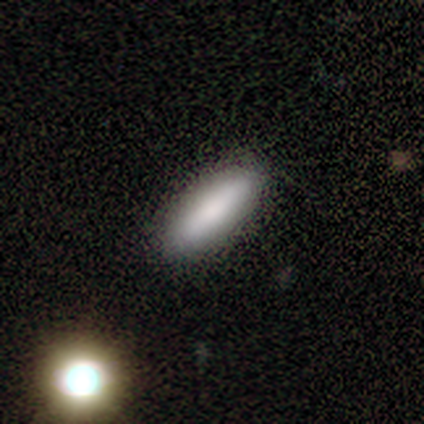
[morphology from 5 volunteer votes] Smooth or featured?
  - smooth: 60% *
  - featured or disk: 40%
  - star or artifact: 0%
How rounded?
  - cigar-shaped: 67% *
  - in between: 33%
  - round: 0%
Merging?
  - none: 60% *
  - major disturbance: 20%
  - merger: 20%
  - minor disturbance: 0%